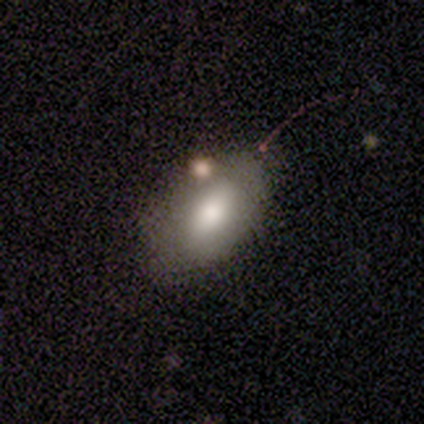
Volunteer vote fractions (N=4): smooth 75%, featured or disk 25%, star or artifact 0%. Down the decision tree: how rounded — in between (100%); merging — none (100%).